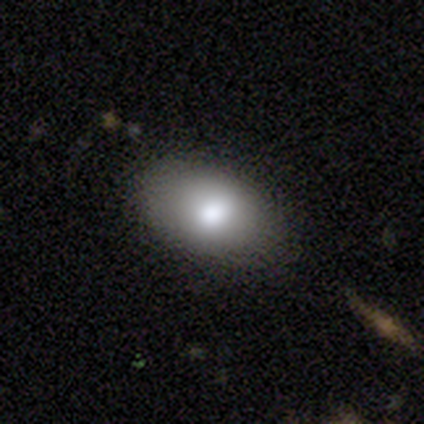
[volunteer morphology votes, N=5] Volunteers were most divided on "bulge size" (2-way tie): large: 50%, moderate: 50%, dominant: 0%, small: 0%, none: 0%. More confident: edge-on disk — no (100%); bar — no (100%); spiral arms — no (100%); smooth or featured — featured or disk (80%); merging — none (80%).